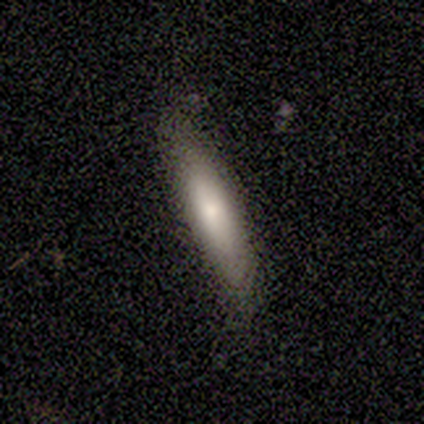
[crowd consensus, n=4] Morphology: type=smooth (50%); roundness=cigar-shaped (100%); merging=none (67%).